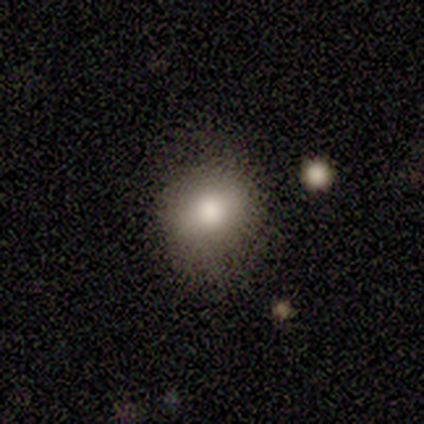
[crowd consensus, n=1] Smooth or featured?
  - smooth: 100% *
  - featured or disk: 0%
  - star or artifact: 0%
How rounded?
  - round: 100% *
  - in between: 0%
  - cigar-shaped: 0%
Merging?
  - none: 100% *
  - minor disturbance: 0%
  - major disturbance: 0%
  - merger: 0%